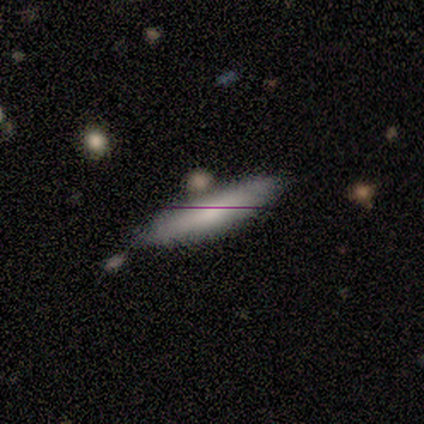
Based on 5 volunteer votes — This is clearly a smooth galaxy (80%). How rounded: clearly cigar-shaped (100%). Merging: likely none (75%).